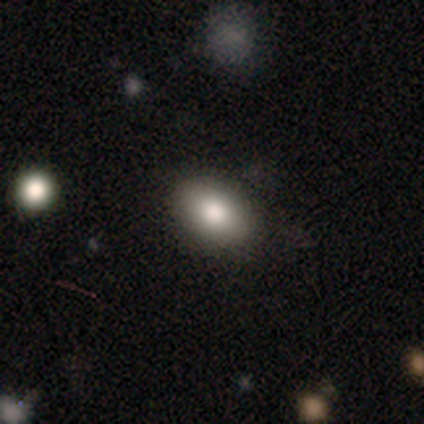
Morphology: type=smooth (78%); roundness=in between (95%); merging=none (85%).